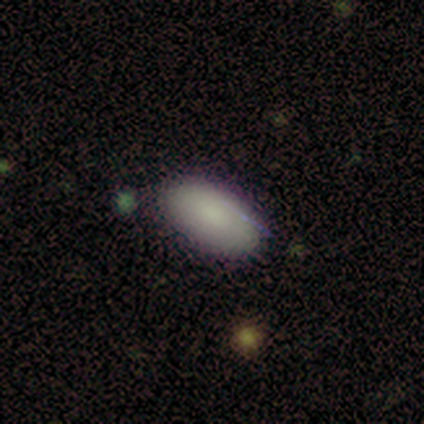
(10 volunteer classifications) Smooth or featured? 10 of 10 (100%) said smooth. How rounded? 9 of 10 (90%) said in between. Merging? 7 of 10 (70%) said none.